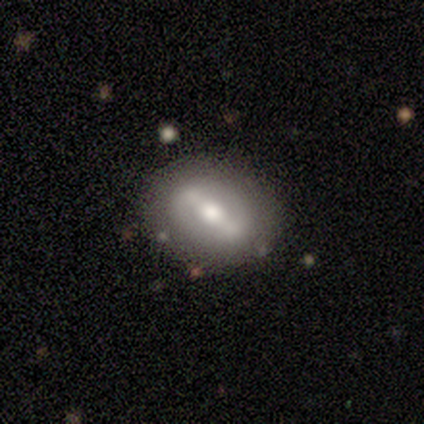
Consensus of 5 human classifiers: Smooth or featured? featured or disk (60%)
Edge-on disk? no (100%)
Bar? strong (67%)
Spiral arms? no (67%)
Bulge size? moderate (67%)
Merging? none (80%)